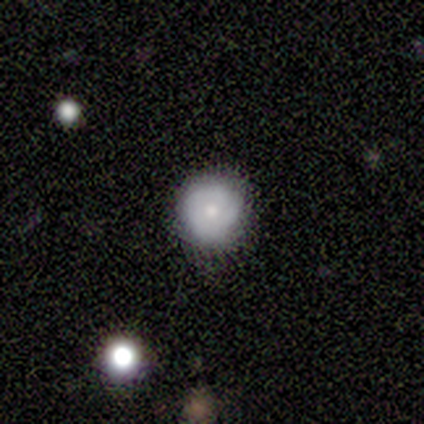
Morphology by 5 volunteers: Q: Smooth or featured?
A: smooth (60%); runner-up: featured or disk (40%)
Q: How rounded?
A: round (100%)
Q: Merging?
A: none (80%); runner-up: minor disturbance (20%)